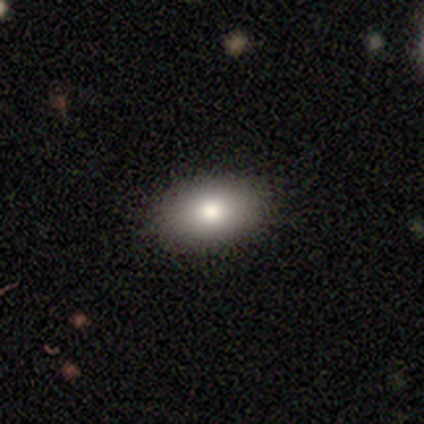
smooth 79%, star or artifact 13%, featured or disk 8%. Down the decision tree: how rounded — in between (93%); merging — none (88%).